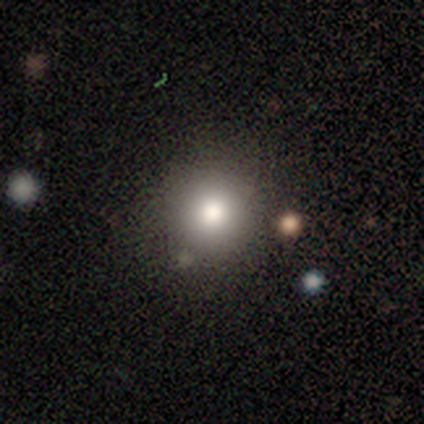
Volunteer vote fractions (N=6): smooth 100%, featured or disk 0%, star or artifact 0%. Down the decision tree: how rounded — round (83%); merging — none (83%).